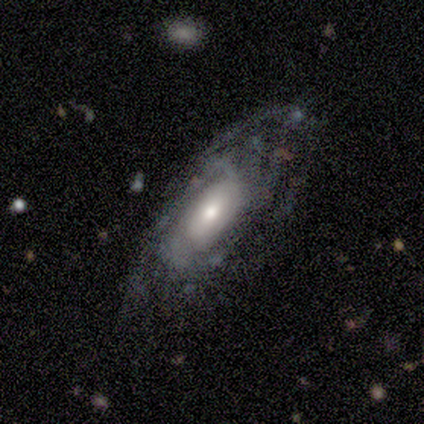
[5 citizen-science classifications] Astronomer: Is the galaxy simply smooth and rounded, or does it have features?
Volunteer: featured or disk — 80%.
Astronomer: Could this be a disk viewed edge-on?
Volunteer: no — 75%.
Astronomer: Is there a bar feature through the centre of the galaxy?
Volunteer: strong — 33%, tied with weak and no at 33%.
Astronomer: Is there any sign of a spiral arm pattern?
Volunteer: yes — 100%.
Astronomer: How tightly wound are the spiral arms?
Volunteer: medium — 67%.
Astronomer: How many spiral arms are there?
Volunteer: can't tell — 67%.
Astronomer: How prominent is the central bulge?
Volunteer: large — 33%, tied with moderate and small at 33%.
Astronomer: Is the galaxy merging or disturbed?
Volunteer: minor disturbance — 80%.